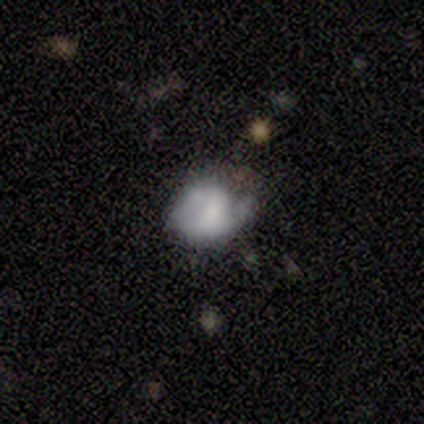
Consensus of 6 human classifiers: This appears to be a featured or disk galaxy (67%) with no bar (100%), no spiral arms (75%) and no central bulge (50%). Merging: minor disturbance (50%).